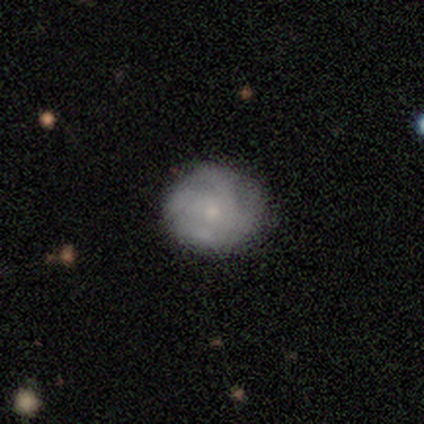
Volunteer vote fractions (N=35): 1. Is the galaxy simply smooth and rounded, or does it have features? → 54% smooth, 40% featured or disk, 6% star or artifact.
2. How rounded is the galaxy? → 84% round, 16% in between, 0% cigar-shaped.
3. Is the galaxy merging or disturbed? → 73% none, 21% minor disturbance, 6% major disturbance, 0% merger.